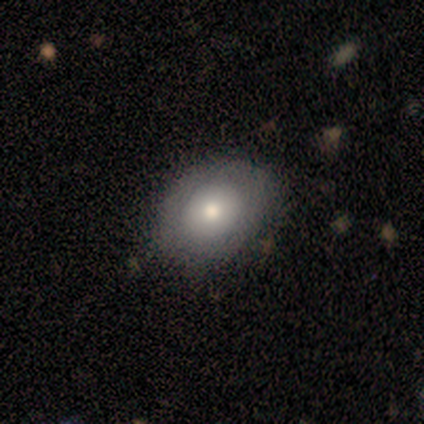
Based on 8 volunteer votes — Smooth or featured? 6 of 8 (75%) said smooth. How rounded? 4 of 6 (67%) said round. Merging? 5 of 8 (62%) said none.